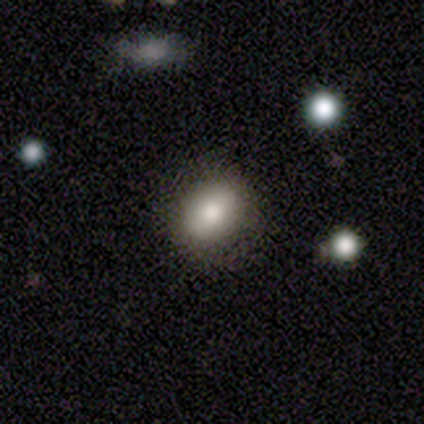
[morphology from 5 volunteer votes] smooth_or_featured: smooth (p=0.80) [alt: featured or disk p=0.20]
how_rounded: round (p=0.50) [tied with: in between p=0.50]
merging: none (p=1.00)